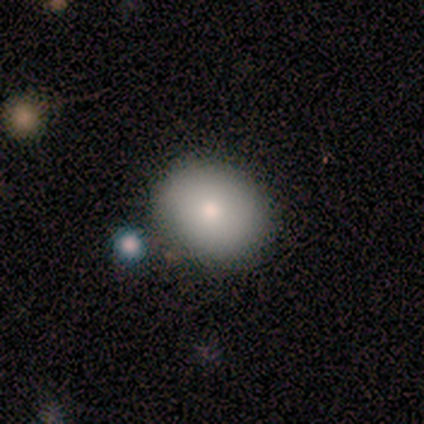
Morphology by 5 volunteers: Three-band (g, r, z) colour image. It shows a smooth galaxy with no disk features (100%) that is in between round and cigar-shaped (80%). Merging: none (80%).